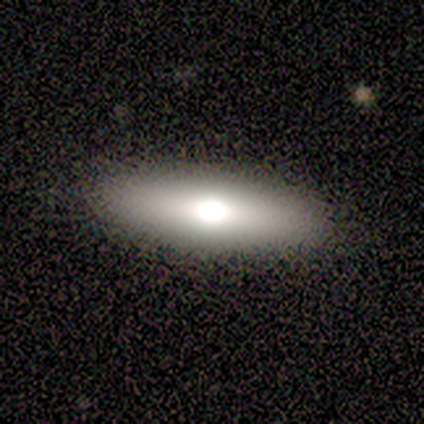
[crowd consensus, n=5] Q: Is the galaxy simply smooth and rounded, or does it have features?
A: featured or disk — 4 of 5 (80%).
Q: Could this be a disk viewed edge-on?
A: yes — 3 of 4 (75%).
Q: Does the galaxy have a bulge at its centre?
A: rounded — 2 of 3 (67%).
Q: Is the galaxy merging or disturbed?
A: none — 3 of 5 (60%).